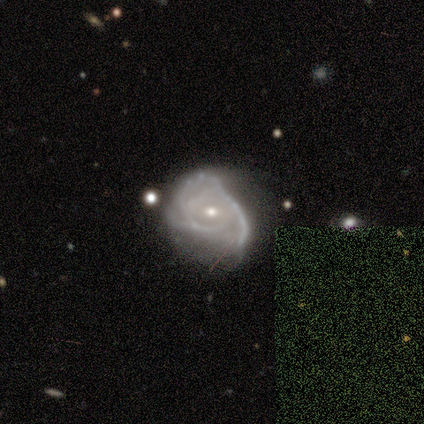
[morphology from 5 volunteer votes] A featured or disk galaxy (80%) with no bar (75%), tight (50%) spiral arms (100%) and a small central bulge (75%).

Vote fractions:
- Smooth or featured? featured or disk: 80% / smooth: 20% / star or artifact: 0%
- Edge-on disk? no: 100% / yes: 0%
- Bar? no: 75% / weak: 25% / strong: 0%
- Spiral arms? yes: 100% / no: 0%
- Spiral winding? tight: 50% / medium: 25% / loose: 25%
- Spiral arm count? can't tell: 50% / 2: 25% / 3: 25% / 1: 0% / 4: 0% / more than 4: 0%
- Bulge size? small: 75% / moderate: 25% / dominant: 0% / large: 0% / none: 0%
- Merging? major disturbance: 80% / minor disturbance: 20% / none: 0% / merger: 0%